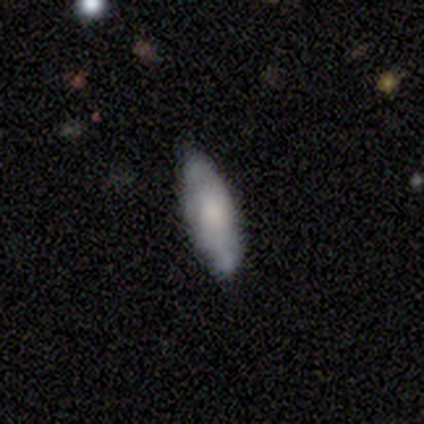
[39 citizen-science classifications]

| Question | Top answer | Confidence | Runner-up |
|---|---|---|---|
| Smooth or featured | smooth | 67% | featured or disk (31%) |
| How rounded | in between | 73% | cigar-shaped (27%) |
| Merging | none | 71% | minor disturbance (26%) |